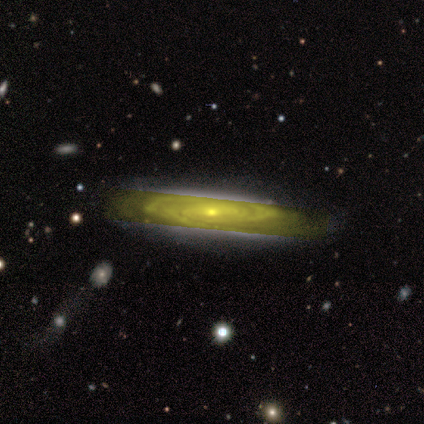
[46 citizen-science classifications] Overall: featured or disk (89%). Edge-on disk: no (88%). Bar: no (47%; weak 33%). Spiral arms: yes (100%). Spiral arm count: can't tell (47%; 2 22%). Spiral winding: tight (81%). Bulge size: small (69%). Merging: none (80%).